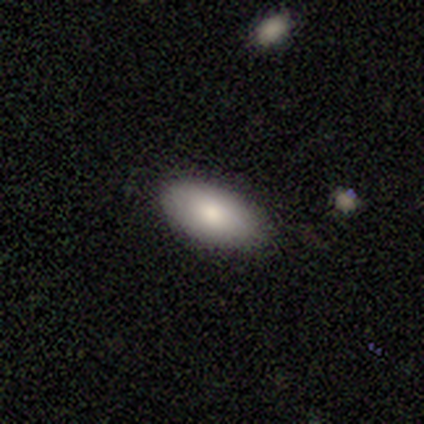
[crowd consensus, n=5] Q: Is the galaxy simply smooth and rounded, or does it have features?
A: smooth — 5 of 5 (100%).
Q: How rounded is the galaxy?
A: in between — 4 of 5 (80%).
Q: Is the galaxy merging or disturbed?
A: none — 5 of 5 (100%).